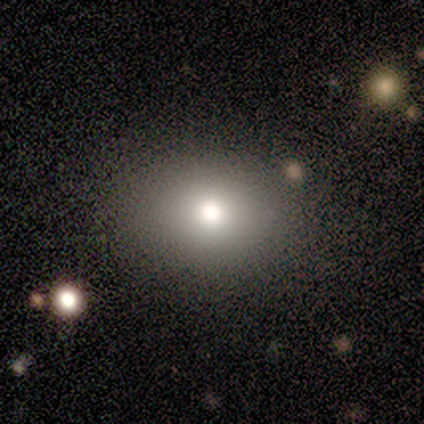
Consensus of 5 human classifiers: This is clearly a smooth galaxy (80%). How rounded: possibly round (50%, tied with in between). Merging: clearly none (80%).